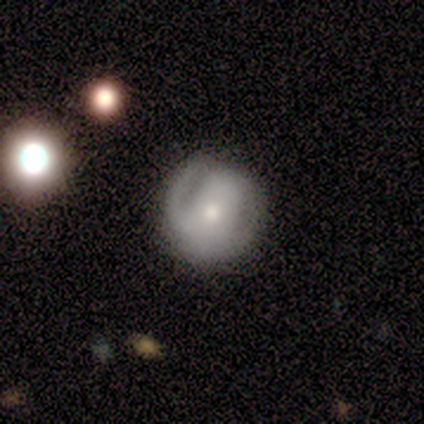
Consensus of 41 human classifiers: A featured or disk galaxy (59%) with no bar (62%), 2 (59%) tight (65%) spiral arms (71%) and a moderate central bulge (58%). Merging: none (62%).